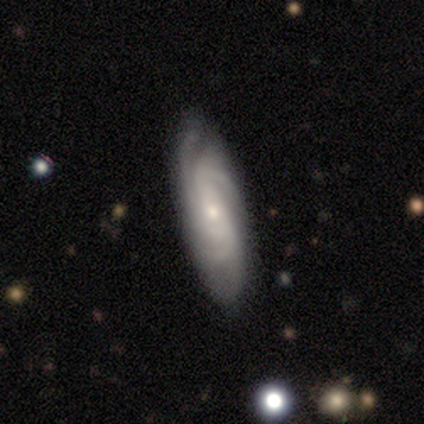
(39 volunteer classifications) A featured or disk galaxy (87%) with no bar (72%), 3 (30%) tight (67%) spiral arms (93%) and a small central bulge (76%).

Vote fractions:
- Smooth or featured? featured or disk: 87% / smooth: 10% / star or artifact: 3%
- Edge-on disk? no: 85% / yes: 15%
- Bar? no: 72% / weak: 17% / strong: 10%
- Spiral arms? yes: 93% / no: 7%
- Spiral winding? tight: 67% / medium: 30% / loose: 4%
- Spiral arm count? 3: 30% / can't tell: 26% / 4: 19% / more than 4: 19% / 2: 7% / 1: 0%
- Bulge size? small: 76% / moderate: 14% / dominant: 3% / large: 3% / none: 3%
- Merging? none: 79% / minor disturbance: 16% / major disturbance: 3% / merger: 3%